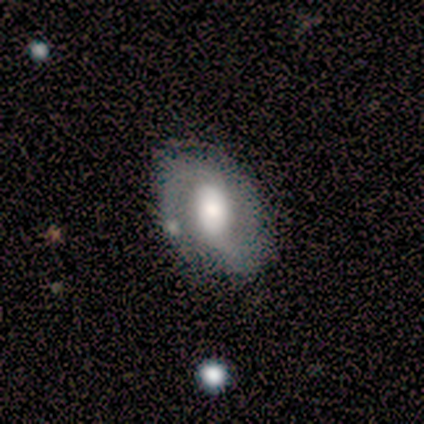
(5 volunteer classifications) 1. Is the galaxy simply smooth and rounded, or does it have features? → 100% featured or disk, 0% smooth, 0% star or artifact.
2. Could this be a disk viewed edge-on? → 100% no, 0% yes.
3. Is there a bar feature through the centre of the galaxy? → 60% weak, 20% strong, 20% no.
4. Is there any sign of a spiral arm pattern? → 100% yes, 0% no.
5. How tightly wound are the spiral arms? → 40% medium (tied), 40% loose (tied), 20% tight.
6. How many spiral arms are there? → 80% 2, 20% can't tell, 0% 1, 0% 3, 0% 4, 0% more than 4.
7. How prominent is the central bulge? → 80% large, 20% none, 0% dominant, 0% moderate, 0% small.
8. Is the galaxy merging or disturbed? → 100% none, 0% minor disturbance, 0% major disturbance, 0% merger.